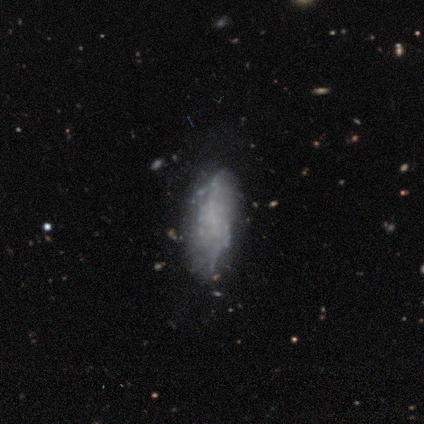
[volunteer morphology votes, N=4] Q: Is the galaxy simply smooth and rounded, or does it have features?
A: featured or disk — 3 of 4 (75%).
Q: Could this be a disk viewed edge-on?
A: no — 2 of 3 (67%).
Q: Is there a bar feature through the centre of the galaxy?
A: weak — 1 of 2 (50%, tied with no).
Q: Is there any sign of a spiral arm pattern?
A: yes — 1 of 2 (50%, tied with no).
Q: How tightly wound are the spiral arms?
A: tight — 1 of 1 (100%).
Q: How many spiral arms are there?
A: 3 — 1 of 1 (100%).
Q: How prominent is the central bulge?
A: none — 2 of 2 (100%).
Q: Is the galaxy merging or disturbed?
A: none — 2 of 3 (67%).